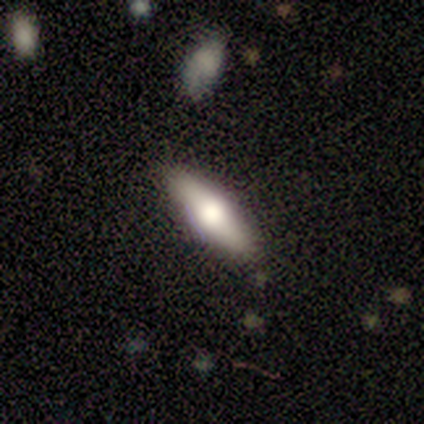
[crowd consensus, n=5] Overall: smooth (80%). How rounded: in between (50%, tied with cigar-shaped). Merging: none (80%).